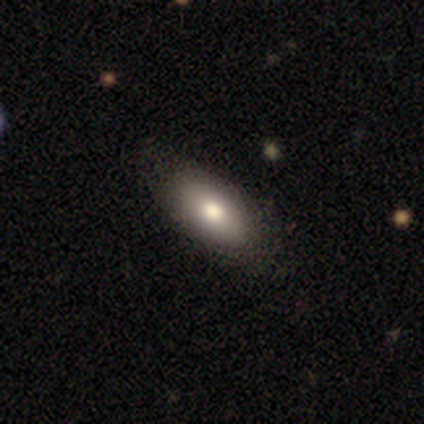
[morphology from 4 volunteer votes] This appears to be a smooth galaxy with no disk features (75%) that is in between round and cigar-shaped (100%). Merging: none (100%).